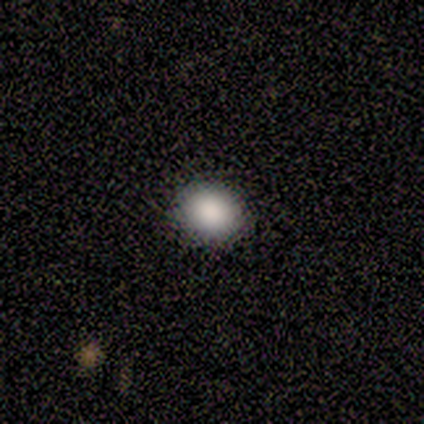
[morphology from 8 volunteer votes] Smooth or featured: smooth — 88% (star or artifact — 12%)
How rounded: round — 57% (in between — 43%)
Merging: none — 71% (major disturbance — 29%)